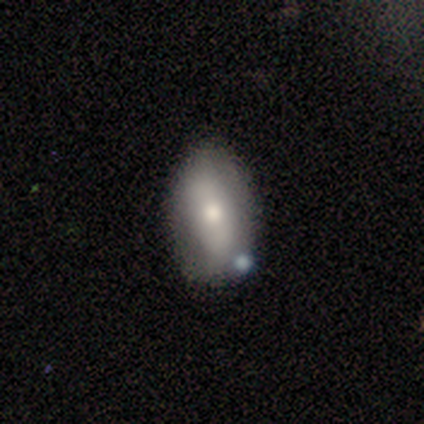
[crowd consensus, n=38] Smooth or featured?
  - smooth: 58% *
  - featured or disk: 37%
  - star or artifact: 5%
How rounded?
  - in between: 82% *
  - round: 9%
  - cigar-shaped: 9%
Merging?
  - none: 81% *
  - minor disturbance: 11%
  - merger: 6%
  - major disturbance: 3%